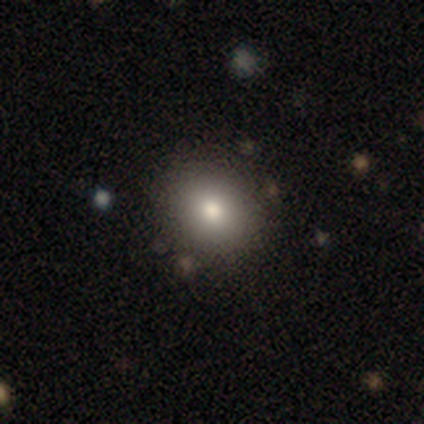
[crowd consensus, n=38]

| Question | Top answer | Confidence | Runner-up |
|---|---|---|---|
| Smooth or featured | smooth | 74% | featured or disk (13%) |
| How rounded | round | 75% | in between (25%) |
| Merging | none | 91% | minor disturbance (6%) |